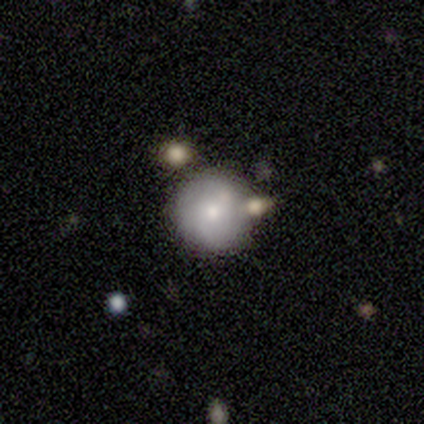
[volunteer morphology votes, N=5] A smooth galaxy with no disk features (60%) that is round (100%). Merging: none (75%).